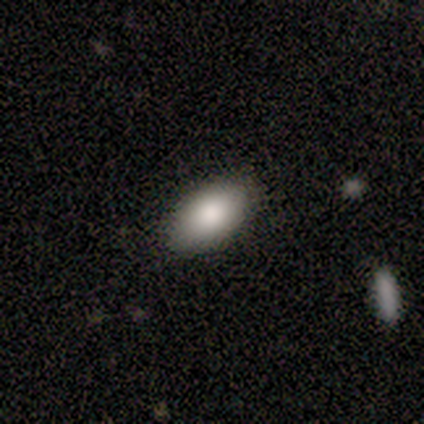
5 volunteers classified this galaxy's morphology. This is clearly a smooth galaxy (100%). How rounded: clearly in between (100%). Merging: clearly none (100%).